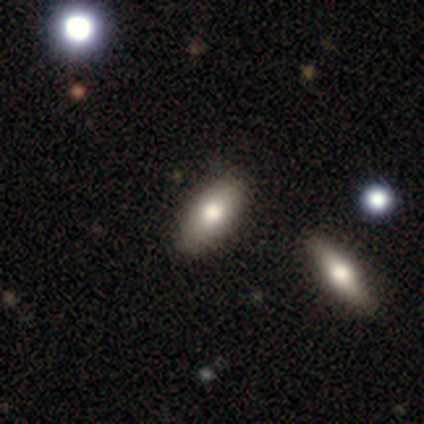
smooth-or-featured: smooth: 57% | featured or disk: 29% | star or artifact: 14%
  how-rounded: in between: 75% | cigar-shaped: 25% | round: 0%
  merging: none: 100% | minor disturbance: 0% | major disturbance: 0% | merger: 0%